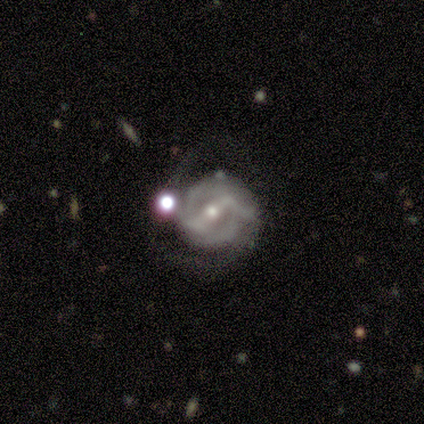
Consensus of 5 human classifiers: Volunteers were most divided on "spiral winding" (2-way tie): medium: 40%, loose: 40%, tight: 20%. More confident: smooth or featured — featured or disk (100%); edge-on disk — no (100%); spiral arms — yes (100%); bar — weak (80%); spiral arm count — 2 (80%); bulge size — moderate (80%); merging — none (80%).